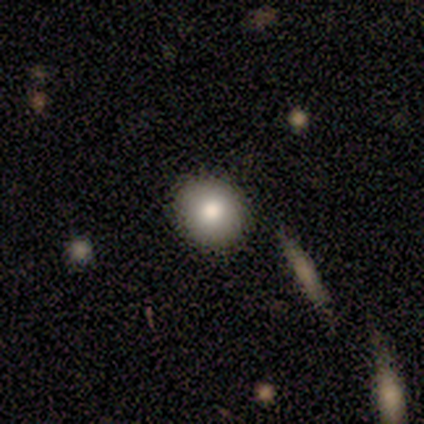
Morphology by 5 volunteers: A smooth galaxy with no disk features (80%) that is round (75%). Merging: none (80%).